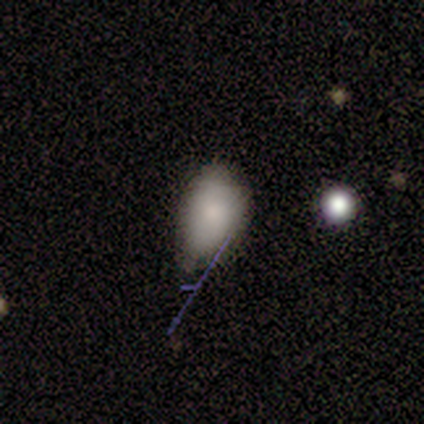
Overall: smooth (100%). How rounded: in between (100%). Merging: minor disturbance (60%; none 20%).